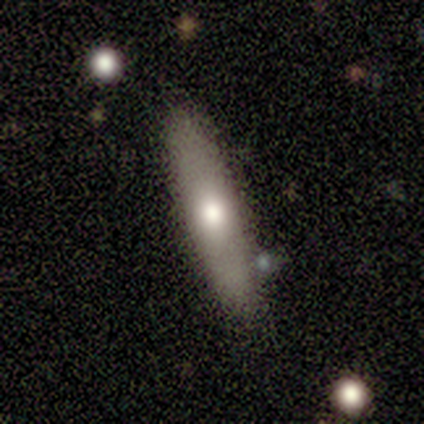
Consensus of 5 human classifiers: smooth 80%, featured or disk 20%, star or artifact 0%. Down the decision tree: how rounded — cigar-shaped (100%); merging — none (100%).